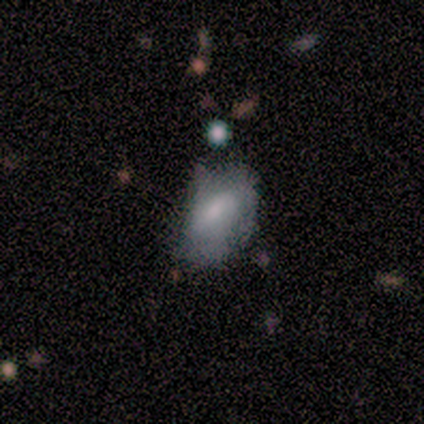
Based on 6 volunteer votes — Overall: smooth (50%, tied with featured or disk). How rounded: in between (100%). Merging: none (83%).